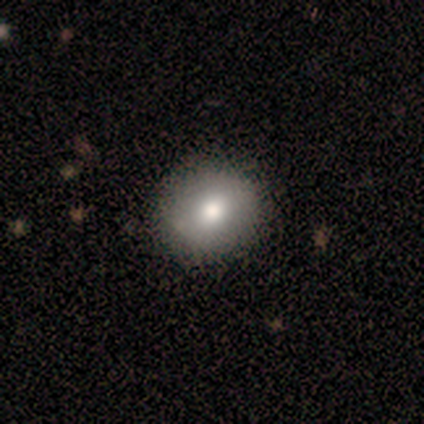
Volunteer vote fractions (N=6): Smooth or featured? smooth (100%)
How rounded? round (100%)
Merging? none (100%)